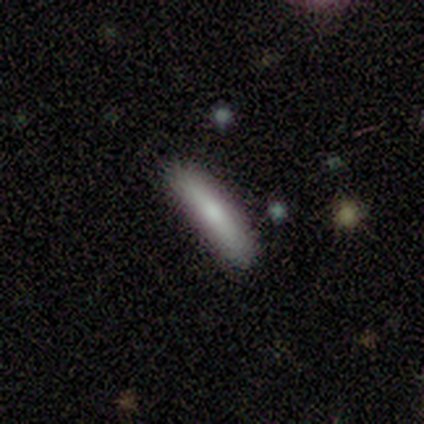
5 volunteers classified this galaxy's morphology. A smooth galaxy with no disk features (80%) that is cigar-shaped (100%).

Vote fractions:
- Smooth or featured? smooth: 80% / star or artifact: 20% / featured or disk: 0%
- How rounded? cigar-shaped: 100% / round: 0% / in between: 0%
- Merging? none: 50% / minor disturbance: 25% / major disturbance: 25% / merger: 0%